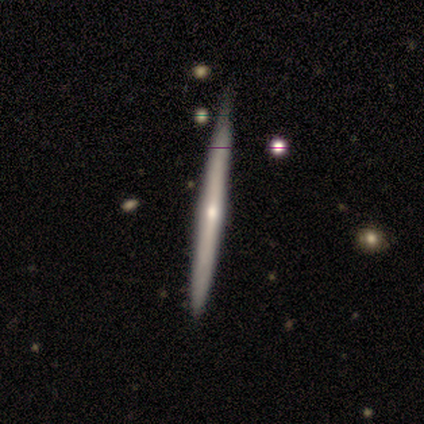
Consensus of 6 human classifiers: A featured or disk galaxy (67%) viewed edge-on (100%) with a rounded central bulge (100%). Merging: none (100%).